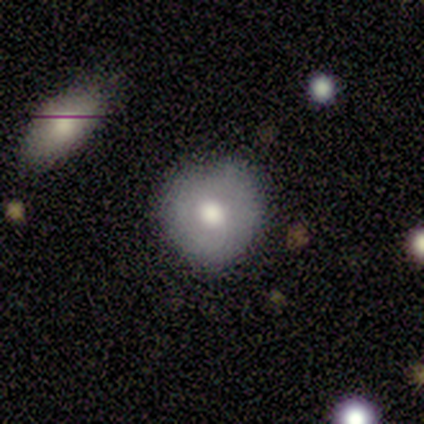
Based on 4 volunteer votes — This is likely a smooth galaxy (75%). How rounded: clearly round (100%). Merging: clearly none (100%).